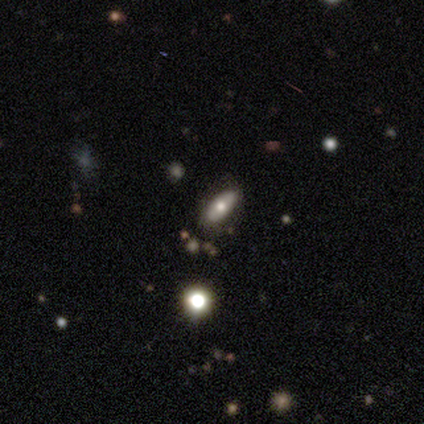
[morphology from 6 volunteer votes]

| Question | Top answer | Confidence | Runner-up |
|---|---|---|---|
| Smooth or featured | smooth | 100% | — |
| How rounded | in between | 50% | tied: cigar-shaped (50%) |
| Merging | none | 67% | minor disturbance (33%) |